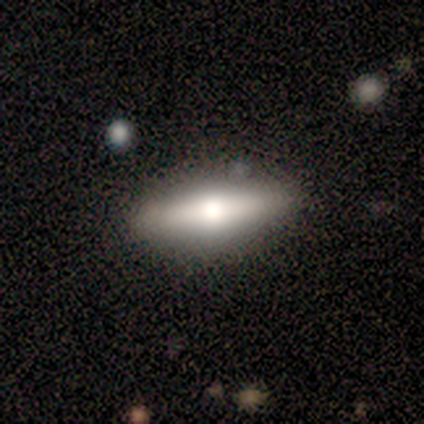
Volunteers were most divided on "smooth or featured": featured or disk: 62%, smooth: 25%, star or artifact: 12%. More confident: edge-on disk — yes (100%); edge-on bulge — rounded (100%); merging — none (100%).